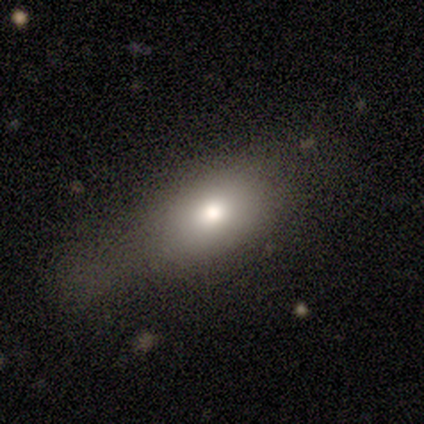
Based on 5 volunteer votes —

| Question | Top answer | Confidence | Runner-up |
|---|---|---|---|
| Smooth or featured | smooth | 60% | star or artifact (40%) |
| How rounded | in between | 100% | — |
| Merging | none | 33% | tied: minor disturbance (33%), major disturbance (33%) |